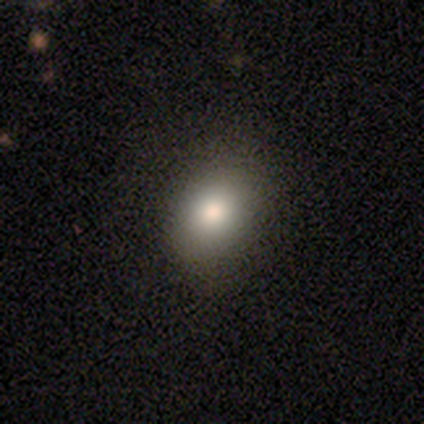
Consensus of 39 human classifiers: smooth_or_featured: smooth (p=0.92) [alt: featured or disk p=0.05]
how_rounded: round (p=0.53) [alt: in between p=0.47]
merging: none (p=0.89) [alt: minor disturbance p=0.08]